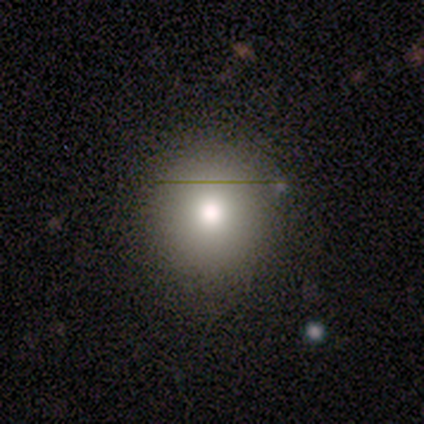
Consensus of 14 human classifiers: Volunteers were most divided on "merging": none: 77%, minor disturbance: 15%, merger: 8%, major disturbance: 0%. More confident: how rounded — round (100%); smooth or featured — smooth (79%).